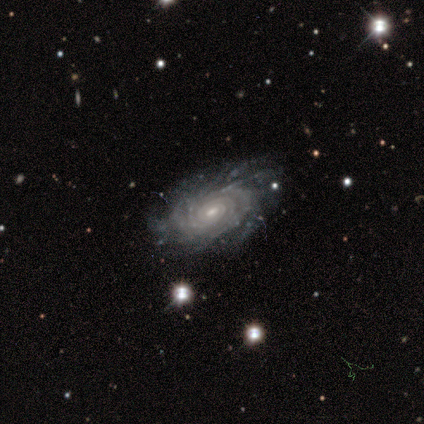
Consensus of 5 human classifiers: A featured or disk galaxy (100%) with no bar (100%), more than 4 (40%, tied with can't tell) tight (80%) spiral arms (100%) and a small central bulge (60%). Merging: none (100%).